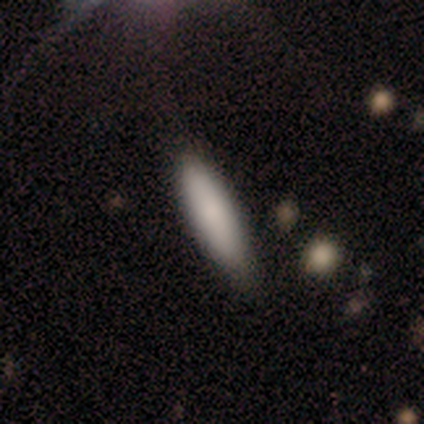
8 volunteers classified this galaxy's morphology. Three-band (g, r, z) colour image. It shows a smooth galaxy with no disk features (88%) that is cigar-shaped (57%). Merging: none (62%).